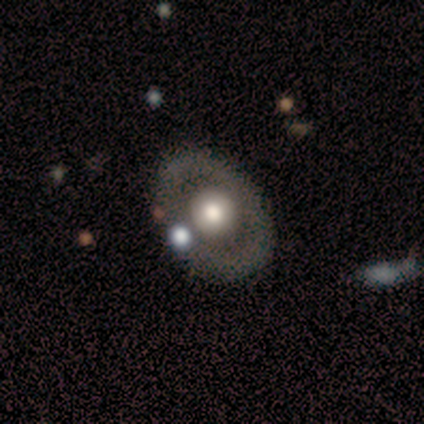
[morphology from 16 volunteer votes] This appears to be a featured or disk galaxy (50%) with no bar (88%), no spiral arms (100%) and a moderate central bulge (62%). Merging: none (87%).